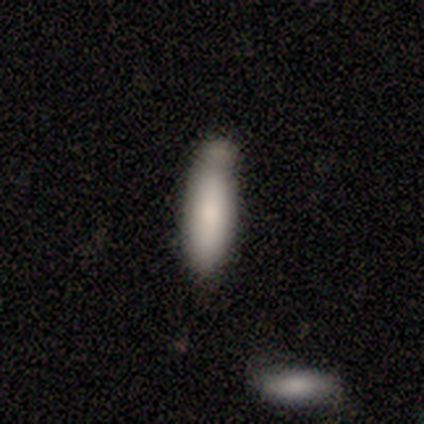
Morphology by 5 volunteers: Q: Smooth or featured?
A: smooth (100%)
Q: How rounded?
A: cigar-shaped (80%); runner-up: in between (20%)
Q: Merging?
A: none (40%); tied with: minor disturbance (40%)